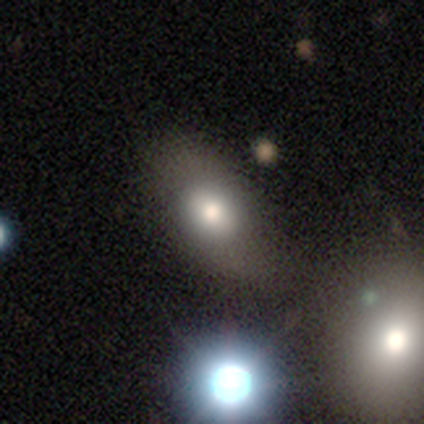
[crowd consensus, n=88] smooth 60%, featured or disk 23%, star or artifact 17%. Down the decision tree: how rounded — in between (81%); merging — none (74%).